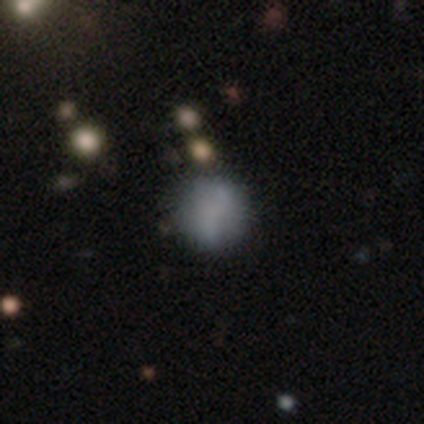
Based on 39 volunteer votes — Smooth or featured? smooth (62%)
How rounded? round (92%)
Merging? none (77%)